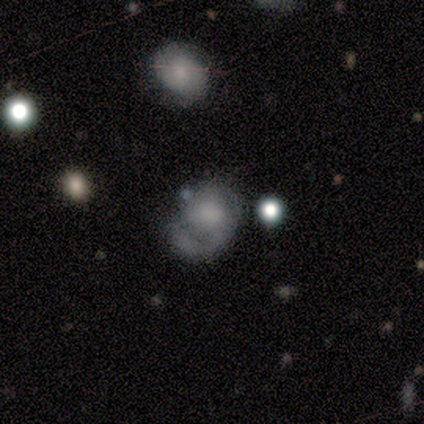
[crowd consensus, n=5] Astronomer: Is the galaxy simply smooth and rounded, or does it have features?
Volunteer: smooth — 60% (runner-up: featured or disk, 40%).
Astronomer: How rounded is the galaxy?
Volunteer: in between — 67%.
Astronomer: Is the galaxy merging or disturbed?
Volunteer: major disturbance — 60% (runner-up: none, 40%).